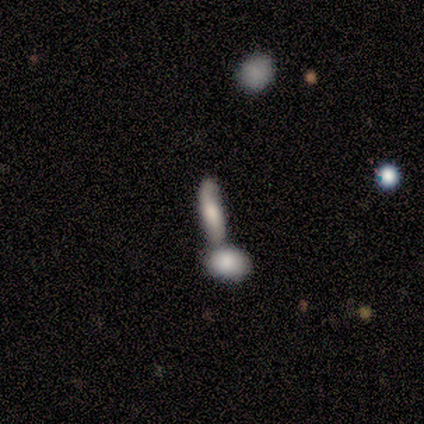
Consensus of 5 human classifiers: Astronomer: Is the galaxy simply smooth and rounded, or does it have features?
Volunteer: smooth — 40%, tied with featured or disk at 40%.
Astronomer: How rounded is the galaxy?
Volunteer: in between — 50%, tied with cigar-shaped at 50%.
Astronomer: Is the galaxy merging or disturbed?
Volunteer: none — 50%.